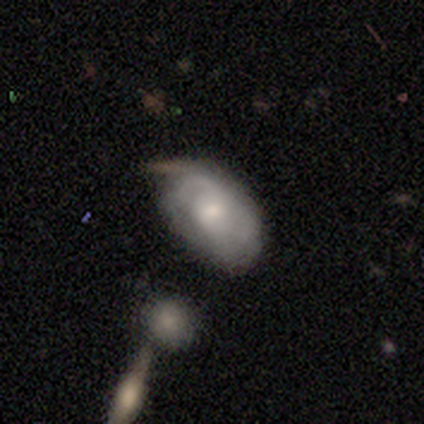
Smooth or featured? 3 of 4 (75%) said featured or disk. Edge-on disk? 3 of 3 (100%) said no. Bar? 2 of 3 (67%) said weak. Spiral arms? 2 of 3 (67%) said no. Bulge size? 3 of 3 (100%) said moderate. Merging? 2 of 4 (50%, tied with minor disturbance) said none.